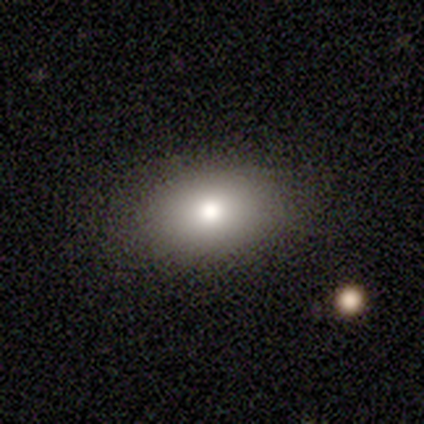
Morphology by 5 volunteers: Smooth or featured? smooth (100%)
How rounded? in between (80%)
Merging? none (100%)